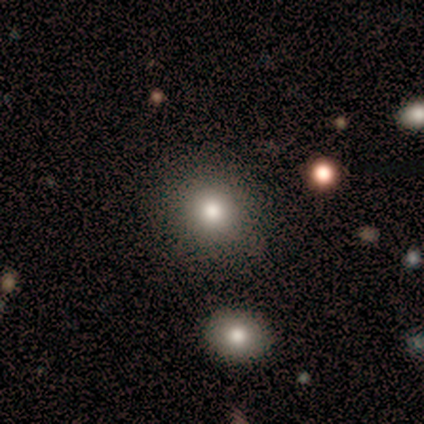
smooth_or_featured: smooth (p=0.75) [alt: star or artifact p=0.25]
how_rounded: round (p=1.00)
merging: none (p=1.00)